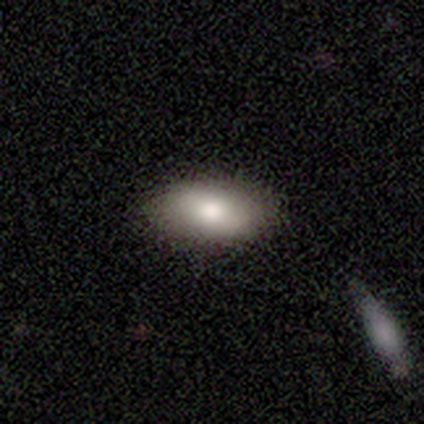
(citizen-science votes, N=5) Smooth or featured: smooth — 100%
How rounded: in between — 100%
Merging: none — 80% (minor disturbance — 20%)